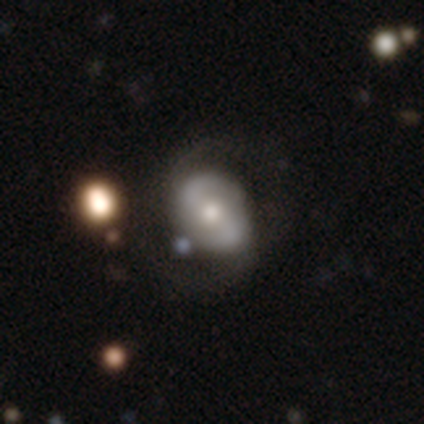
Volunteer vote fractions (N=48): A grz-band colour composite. It shows a featured or disk galaxy (77%) with no bar (36%), 2 (83%) medium (40%) spiral arms (83%) and a moderate central bulge (69%). Merging: none (60%).